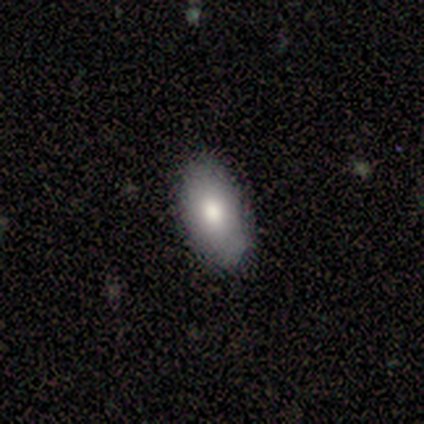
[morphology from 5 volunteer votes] smooth 60%, featured or disk 20%, star or artifact 20%. Down the decision tree: how rounded — in between (67%); merging — none (50%, tied with minor disturbance).